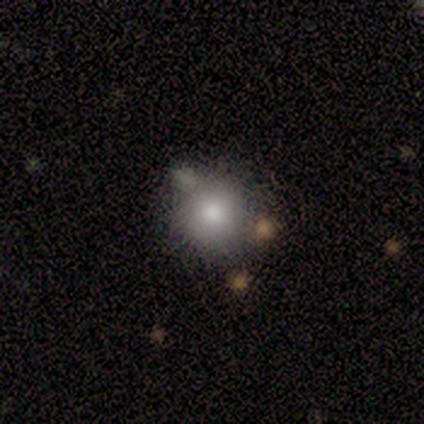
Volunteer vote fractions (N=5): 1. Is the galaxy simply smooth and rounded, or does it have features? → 60% smooth, 40% star or artifact, 0% featured or disk.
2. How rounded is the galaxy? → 100% round, 0% in between, 0% cigar-shaped.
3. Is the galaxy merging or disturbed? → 100% none, 0% minor disturbance, 0% major disturbance, 0% merger.